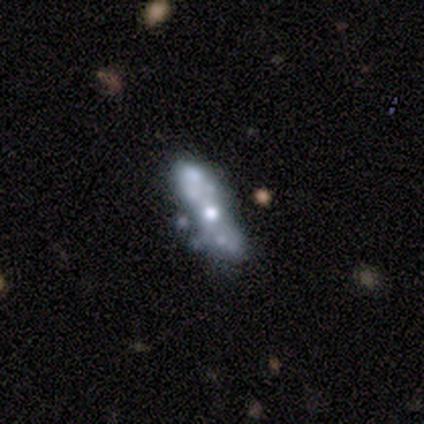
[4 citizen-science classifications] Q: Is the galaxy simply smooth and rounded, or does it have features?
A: featured or disk — 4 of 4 (100%).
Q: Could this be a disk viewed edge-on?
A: no — 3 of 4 (75%).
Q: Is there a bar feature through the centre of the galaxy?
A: no — 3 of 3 (100%).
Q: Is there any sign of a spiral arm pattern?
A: no — 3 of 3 (100%).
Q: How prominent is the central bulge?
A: moderate — 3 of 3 (100%).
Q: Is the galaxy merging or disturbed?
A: none — 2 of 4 (50%).